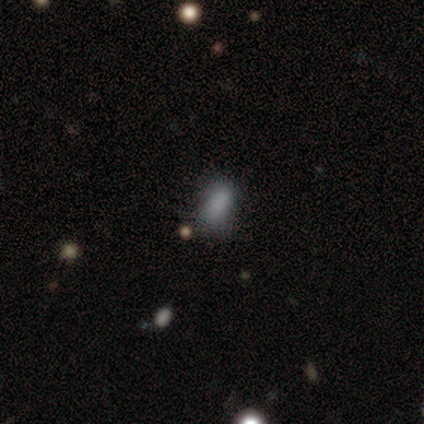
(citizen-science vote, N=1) smooth_or_featured: smooth (p=1.00)
how_rounded: in between (p=1.00)
merging: minor disturbance (p=1.00)